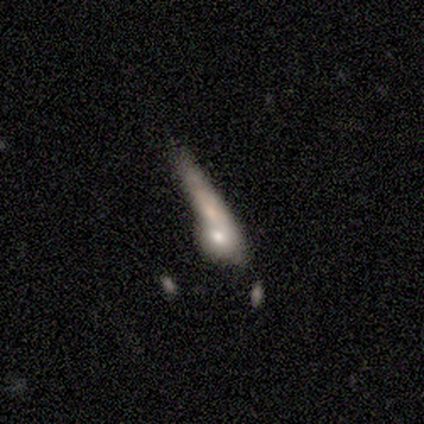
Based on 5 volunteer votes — This appears to be a featured or disk galaxy (60%) viewed edge-on (67%) with a boxy central bulge (50%, tied with rounded). Merging: merger (75%).